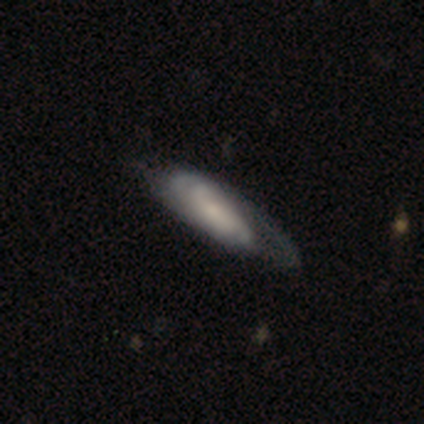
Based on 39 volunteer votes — This is possibly a featured or disk galaxy (59%). It is likely not viewed edge-on (78%). Bar: likely no (67%). Spiral arm pattern: clearly yes (89%). Spiral arm count: possibly can't tell (50%). Spiral winding: possibly tight (50%). Central bulge: possibly small (50%). Merging: possibly none (46%).